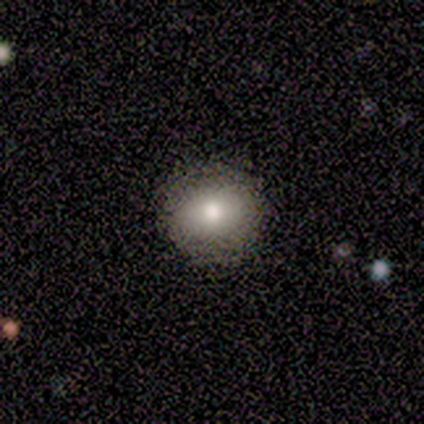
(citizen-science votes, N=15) smooth-or-featured: smooth: 73% | featured or disk: 13% | star or artifact: 13%
  how-rounded: round: 82% | in between: 9% | cigar-shaped: 9%
  merging: none: 85% | minor disturbance: 15% | major disturbance: 0% | merger: 0%